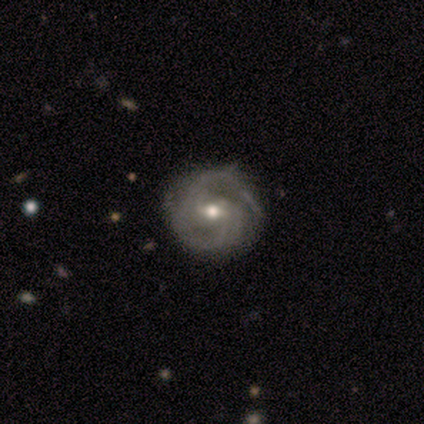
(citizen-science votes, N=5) This appears to be a featured or disk galaxy (80%) with a weak bar (50%), 2 (100%) tight (50%, tied with medium) spiral arms (100%) and a moderate central bulge (75%). Merging: none (100%).